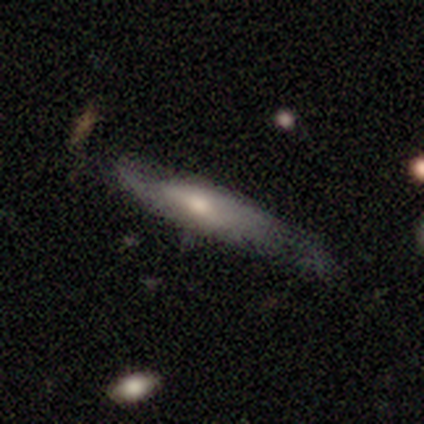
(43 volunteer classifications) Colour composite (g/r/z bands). It shows a featured or disk galaxy (51%) with no bar (67%), 2 (78%) medium (44%, tied with loose) spiral arms (75%) and a moderate central bulge (42%). Merging: none (54%).